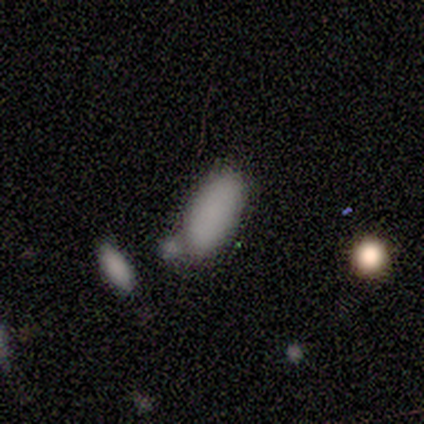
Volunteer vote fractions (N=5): Smooth or featured?
  - smooth: 80% *
  - featured or disk: 20%
  - star or artifact: 0%
How rounded?
  - in between: 100% *
  - round: 0%
  - cigar-shaped: 0%
Merging?
  - none: 80% *
  - merger: 20%
  - minor disturbance: 0%
  - major disturbance: 0%